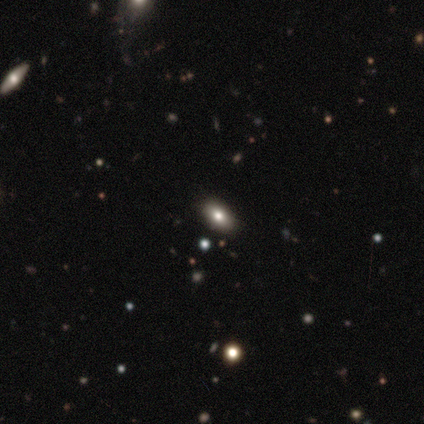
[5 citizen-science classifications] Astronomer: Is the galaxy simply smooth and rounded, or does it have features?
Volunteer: smooth — 80%.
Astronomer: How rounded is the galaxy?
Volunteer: in between — 100%.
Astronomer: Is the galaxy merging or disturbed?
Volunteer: none — 60%.